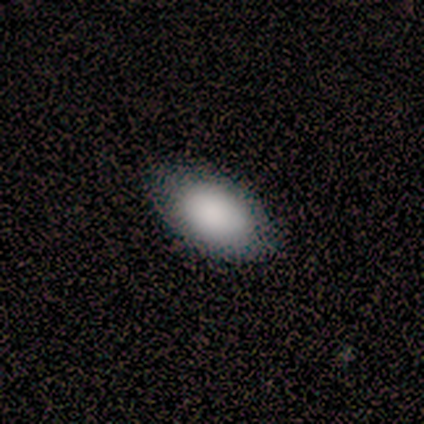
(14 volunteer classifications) Q: Smooth or featured?
A: smooth (100%)
Q: How rounded?
A: in between (86%); runner-up: round (14%)
Q: Merging?
A: none (100%)